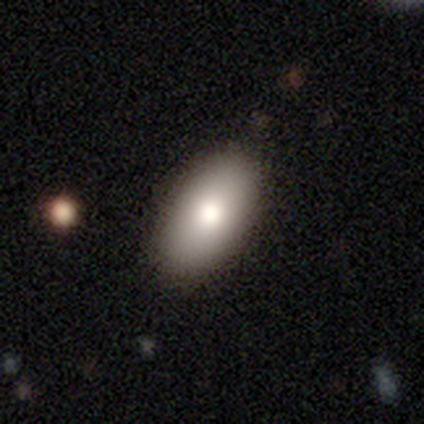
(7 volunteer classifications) smooth_or_featured: smooth (p=1.00)
how_rounded: in between (p=1.00)
merging: none (p=0.71) [alt: minor disturbance p=0.29]